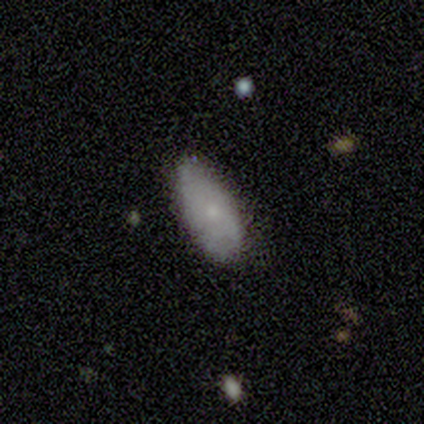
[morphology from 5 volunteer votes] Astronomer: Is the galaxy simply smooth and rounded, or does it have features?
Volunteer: smooth — 100%.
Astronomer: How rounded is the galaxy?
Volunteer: in between — 100%.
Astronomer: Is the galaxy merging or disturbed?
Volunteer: none — 100%.